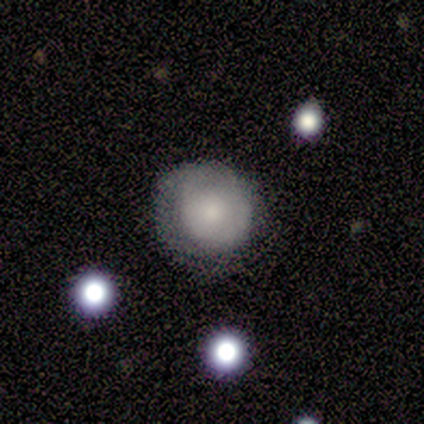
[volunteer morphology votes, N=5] A smooth galaxy with no disk features (40%, tied with star or artifact) that is round (100%). Merging: none (100%).